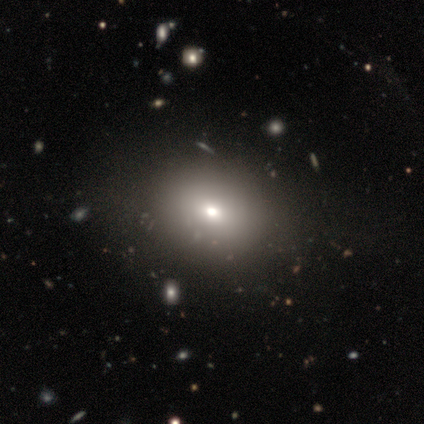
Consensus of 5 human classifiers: smooth-or-featured: smooth: 80% | star or artifact: 20% | featured or disk: 0%
  how-rounded: in between: 75% | round: 25% | cigar-shaped: 0%
  merging: none: 50% (tied) | minor disturbance: 50% (tied) | major disturbance: 0% | merger: 0%